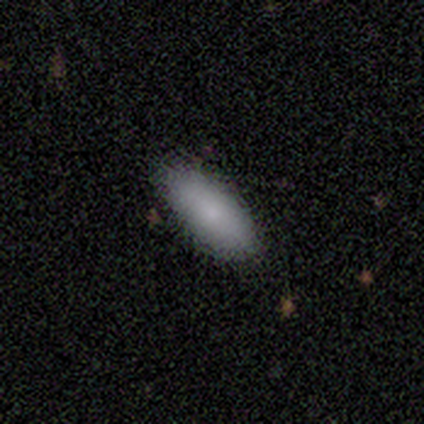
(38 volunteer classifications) Volunteers were most divided on "how rounded": in between: 73%, cigar-shaped: 27%, round: 0%. More confident: merging — none (89%); smooth or featured — smooth (87%).